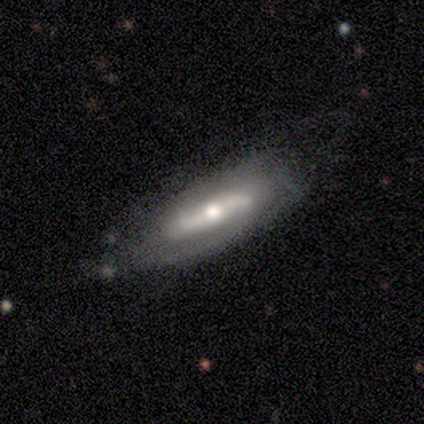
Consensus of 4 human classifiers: A smooth galaxy with no disk features (50%, tied with featured or disk) that is in between round and cigar-shaped (100%).

Vote fractions:
- Smooth or featured? smooth: 50% (tied) / featured or disk: 50% (tied) / star or artifact: 0%
- How rounded? in between: 100% / round: 0% / cigar-shaped: 0%
- Merging? none: 75% / minor disturbance: 25% / major disturbance: 0% / merger: 0%